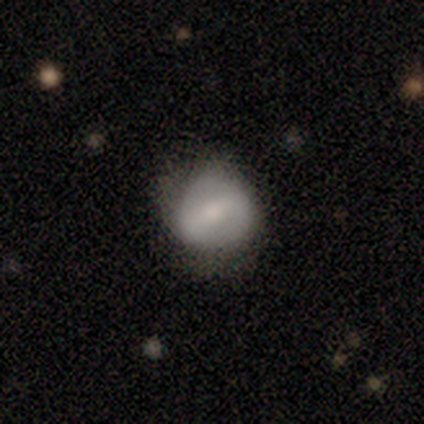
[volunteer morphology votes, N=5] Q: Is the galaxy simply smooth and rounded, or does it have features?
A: featured or disk — 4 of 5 (80%).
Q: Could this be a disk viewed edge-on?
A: no — 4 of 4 (100%).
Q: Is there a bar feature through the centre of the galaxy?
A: strong — 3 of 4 (75%).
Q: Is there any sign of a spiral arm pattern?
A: yes — 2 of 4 (50%, tied with no).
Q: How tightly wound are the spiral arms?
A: medium — 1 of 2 (50%, tied with loose).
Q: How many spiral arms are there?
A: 1 — 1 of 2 (50%, tied with 2).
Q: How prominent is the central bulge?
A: moderate — 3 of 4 (75%).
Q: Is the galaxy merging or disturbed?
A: minor disturbance — 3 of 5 (60%).